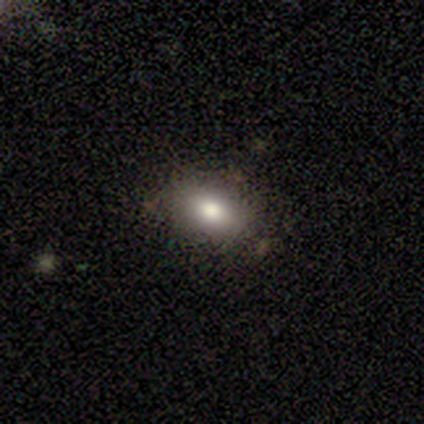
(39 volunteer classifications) smooth-or-featured: smooth: 90% | featured or disk: 8% | star or artifact: 3%
  how-rounded: in between: 80% | round: 20% | cigar-shaped: 0%
  merging: none: 47% | minor disturbance: 11% | merger: 11% | major disturbance: 3%